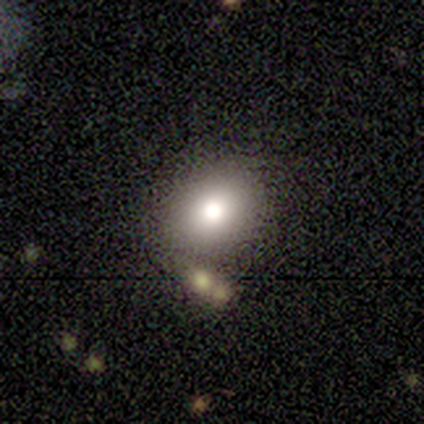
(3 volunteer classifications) smooth-or-featured: smooth: 67% | star or artifact: 33% | featured or disk: 0%
  how-rounded: round: 50% (tied) | in between: 50% (tied) | cigar-shaped: 0%
  merging: none: 50% (tied) | major disturbance: 50% (tied) | minor disturbance: 0% | merger: 0%